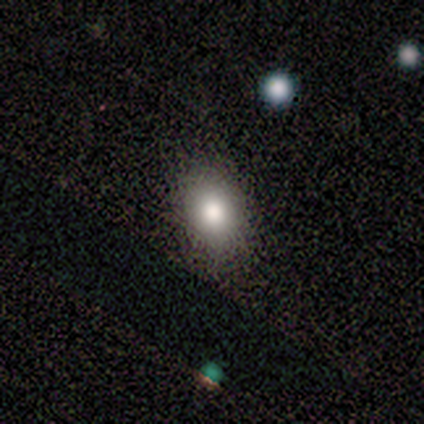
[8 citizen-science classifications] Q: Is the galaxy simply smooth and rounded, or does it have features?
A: smooth — 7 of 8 (88%).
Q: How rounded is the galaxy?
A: in between — 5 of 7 (71%).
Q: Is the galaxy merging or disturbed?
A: none — 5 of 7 (71%).